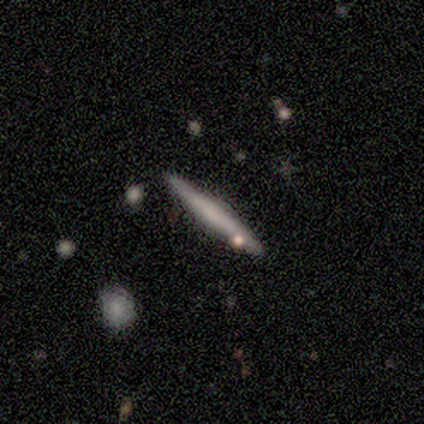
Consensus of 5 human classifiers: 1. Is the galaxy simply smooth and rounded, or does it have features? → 80% smooth, 20% featured or disk, 0% star or artifact.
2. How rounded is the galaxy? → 100% cigar-shaped, 0% round, 0% in between.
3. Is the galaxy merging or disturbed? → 80% none, 20% minor disturbance, 0% major disturbance, 0% merger.